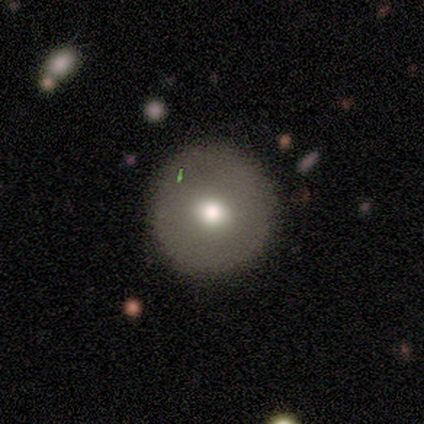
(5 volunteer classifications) A featured or disk galaxy (60%) with no bar (100%), no spiral arms (100%) and a moderate central bulge (67%). Merging: none (80%).